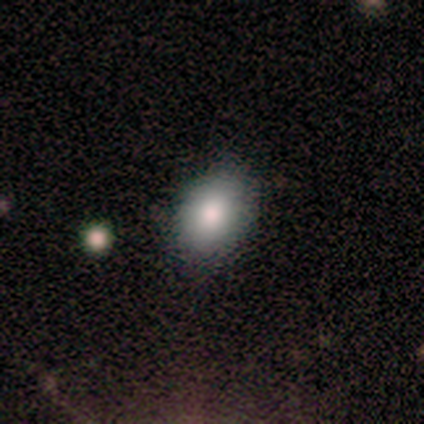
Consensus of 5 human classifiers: Q: Smooth or featured?
A: smooth (80%); runner-up: featured or disk (20%)
Q: How rounded?
A: in between (75%); runner-up: round (25%)
Q: Merging?
A: none (80%); runner-up: merger (20%)